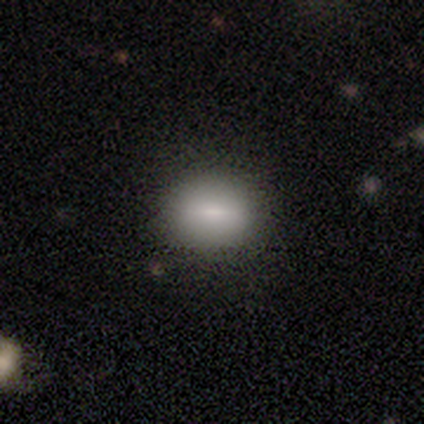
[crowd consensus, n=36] A smooth galaxy with no disk features (61%) that is in between round and cigar-shaped (59%).

Vote fractions:
- Smooth or featured? smooth: 61% / featured or disk: 28% / star or artifact: 11%
- How rounded? in between: 59% / round: 41% / cigar-shaped: 0%
- Merging? none: 81% / minor disturbance: 9% / major disturbance: 6% / merger: 3%